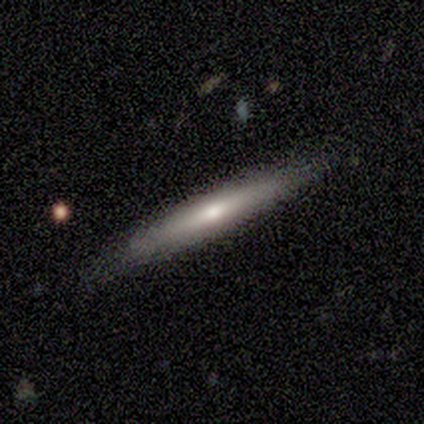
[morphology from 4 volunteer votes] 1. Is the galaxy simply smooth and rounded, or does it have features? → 75% smooth, 25% featured or disk, 0% star or artifact.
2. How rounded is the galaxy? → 100% cigar-shaped, 0% round, 0% in between.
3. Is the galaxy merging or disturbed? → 75% none, 25% minor disturbance, 0% major disturbance, 0% merger.